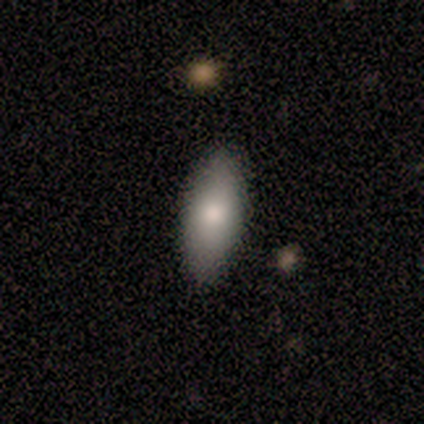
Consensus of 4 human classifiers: A smooth galaxy with no disk features (75%) that is in between round and cigar-shaped (100%). Merging: none (100%).